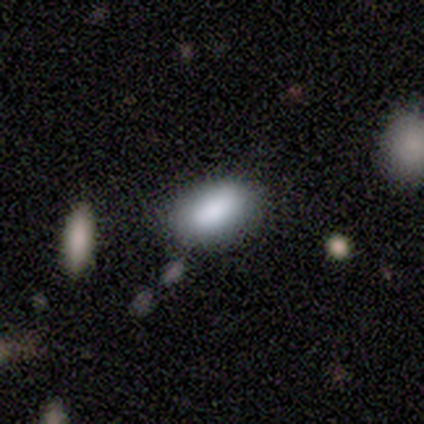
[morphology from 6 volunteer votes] smooth 83%, star or artifact 17%, featured or disk 0%. Down the decision tree: how rounded — in between (80%); merging — none (100%).